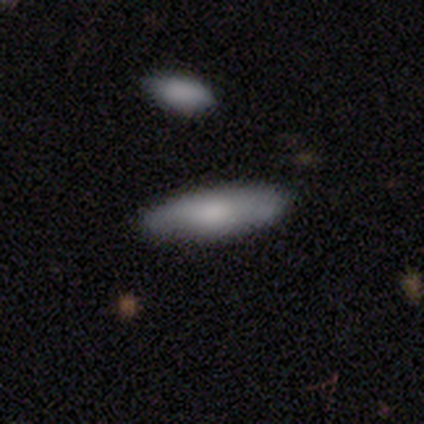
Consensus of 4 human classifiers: Smooth or featured?
  - smooth: 100% *
  - featured or disk: 0%
  - star or artifact: 0%
How rounded?
  - in between: 100% *
  - round: 0%
  - cigar-shaped: 0%
Merging?
  - none: 100% *
  - minor disturbance: 0%
  - major disturbance: 0%
  - merger: 0%